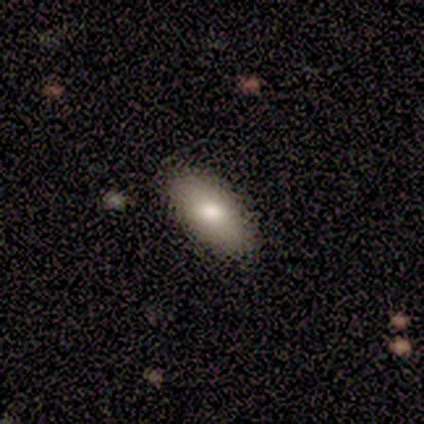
This is clearly a smooth galaxy (86%). How rounded: clearly in between (84%). Merging: clearly none (86%).